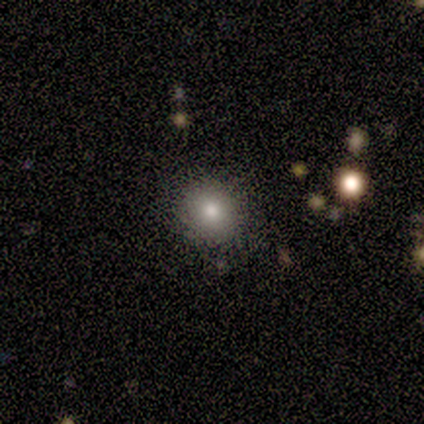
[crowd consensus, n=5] A smooth galaxy with no disk features (80%) that is round (100%).

Vote fractions:
- Smooth or featured? smooth: 80% / featured or disk: 20% / star or artifact: 0%
- How rounded? round: 100% / in between: 0% / cigar-shaped: 0%
- Merging? none: 80% / minor disturbance: 20% / major disturbance: 0% / merger: 0%